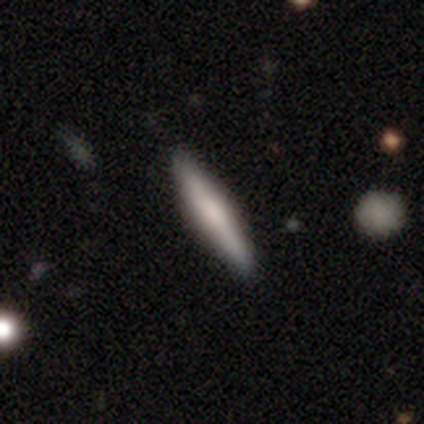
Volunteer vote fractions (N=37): Smooth or featured? smooth (57%)
How rounded? cigar-shaped (76%)
Merging? none (78%)